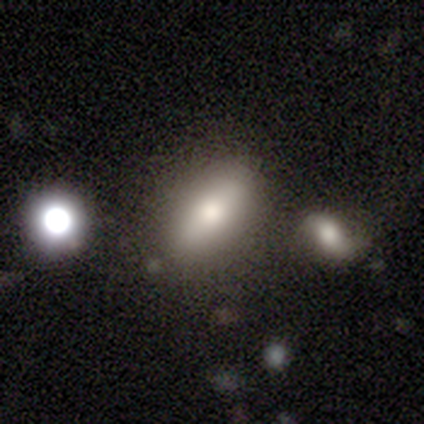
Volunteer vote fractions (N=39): smooth-or-featured: smooth: 72% | featured or disk: 15% | star or artifact: 13%
  how-rounded: in between: 86% | round: 7% | cigar-shaped: 7%
  merging: none: 65% | merger: 18% | minor disturbance: 15% | major disturbance: 3%